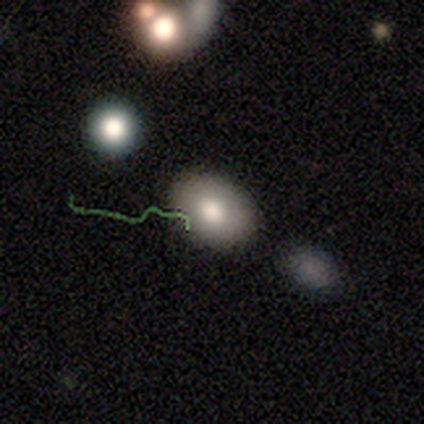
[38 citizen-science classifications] Smooth or featured: smooth — 61% (featured or disk — 24%)
How rounded: in between — 87% (round — 13%)
Merging: none — 72% (minor disturbance — 12%)